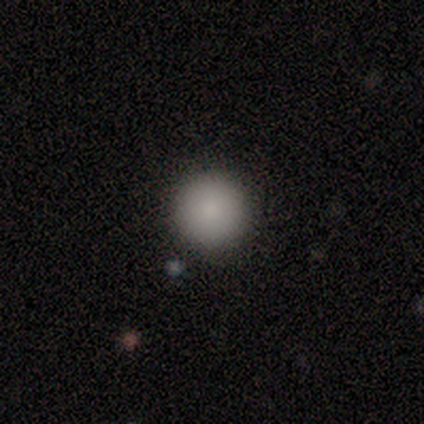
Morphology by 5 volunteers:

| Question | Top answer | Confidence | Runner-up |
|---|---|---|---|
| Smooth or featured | smooth | 100% | — |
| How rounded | round | 100% | — |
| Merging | none | 100% | — |